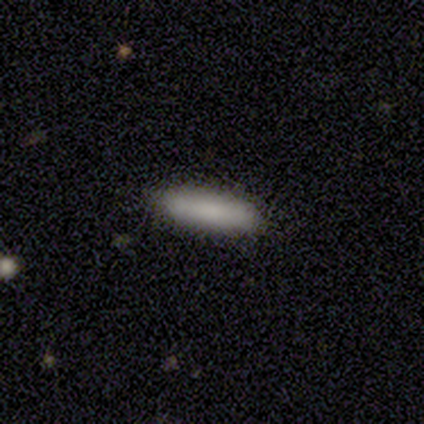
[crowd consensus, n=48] Overall: smooth (85%). How rounded: cigar-shaped (59%; in between 41%). Merging: none (89%).